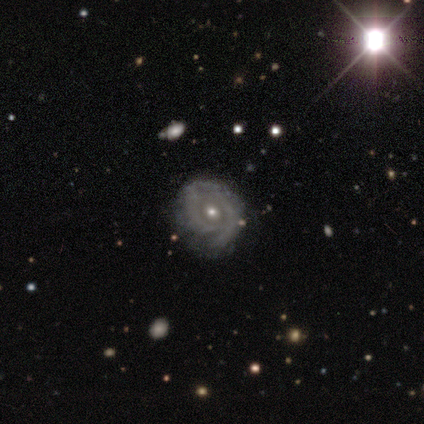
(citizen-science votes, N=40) featured or disk 92%, star or artifact 5%, smooth 2%. Down the decision tree: edge-on disk — no (100%); bar — no (73%); spiral arms — yes (73%); spiral arm count — can't tell (37%); spiral winding — tight (59%); bulge size — small (65%); merging — none (66%).